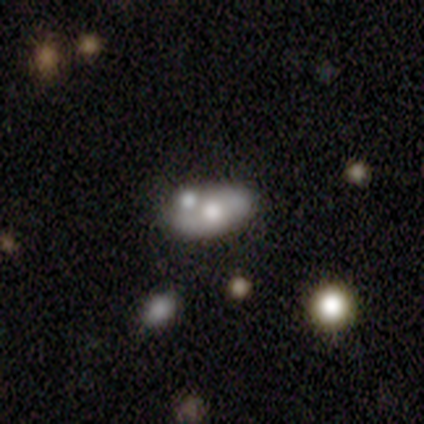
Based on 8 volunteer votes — Volunteers were most divided on "smooth or featured": smooth: 50%, featured or disk: 38%, star or artifact: 12%. More confident: how rounded — in between (100%); merging — none (71%).